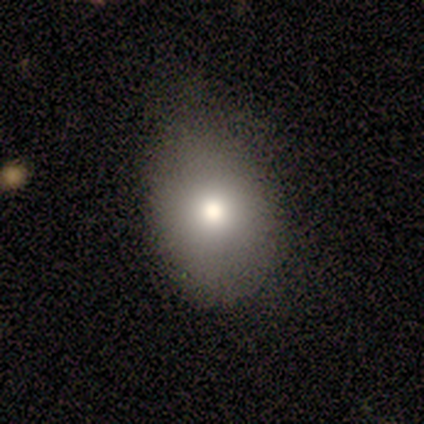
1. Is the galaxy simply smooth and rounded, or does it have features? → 100% smooth, 0% featured or disk, 0% star or artifact.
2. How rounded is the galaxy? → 75% in between, 25% round, 0% cigar-shaped.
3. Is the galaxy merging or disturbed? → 50% none (tied), 50% minor disturbance (tied), 0% major disturbance, 0% merger.